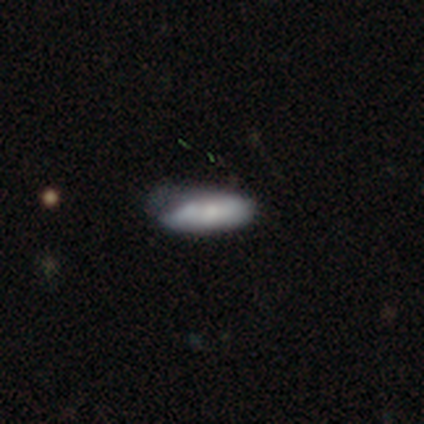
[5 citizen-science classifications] smooth 40% (tied), featured or disk 40% (tied), star or artifact 20%. Down the decision tree: how rounded — in between (50%, tied with cigar-shaped); merging — none (50%, tied with minor disturbance).